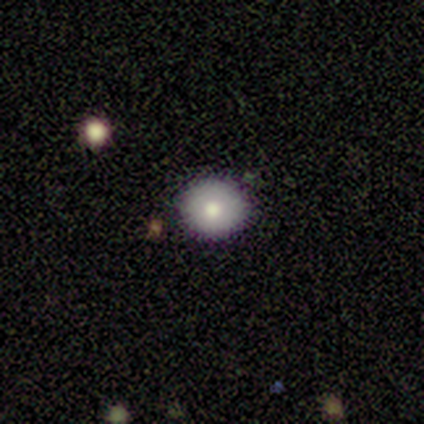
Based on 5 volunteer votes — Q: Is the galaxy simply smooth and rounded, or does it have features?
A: smooth — 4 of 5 (80%).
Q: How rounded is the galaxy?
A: round — 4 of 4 (100%).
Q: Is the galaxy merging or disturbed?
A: none — 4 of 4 (100%).